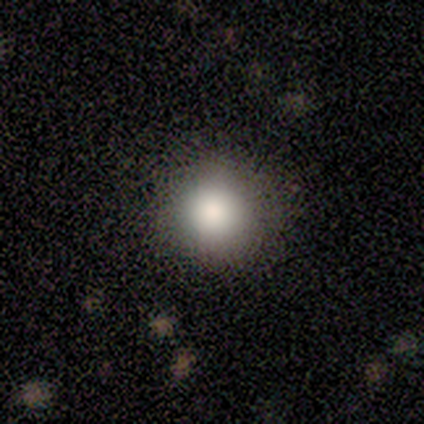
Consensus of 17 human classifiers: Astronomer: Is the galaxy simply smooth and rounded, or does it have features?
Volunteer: smooth — 88%.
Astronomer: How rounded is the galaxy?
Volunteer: round — 100%.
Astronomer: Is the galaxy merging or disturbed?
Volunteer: none — 88%.